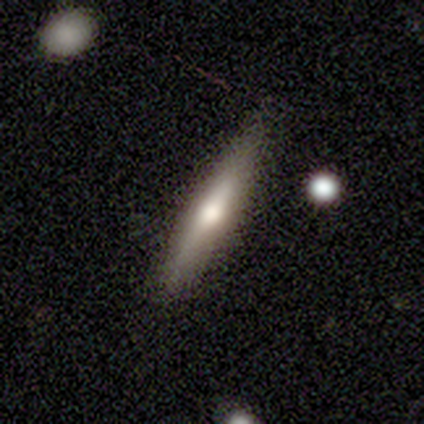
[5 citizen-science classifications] Smooth or featured? 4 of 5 (80%) said smooth. How rounded? 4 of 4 (100%) said cigar-shaped. Merging? 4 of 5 (80%) said none.